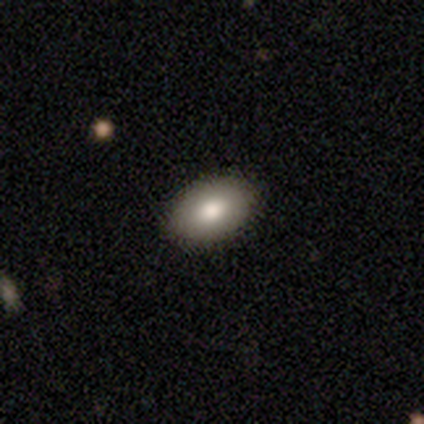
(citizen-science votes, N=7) This is clearly a smooth galaxy (100%). How rounded: clearly in between (100%). Merging: clearly none (86%).